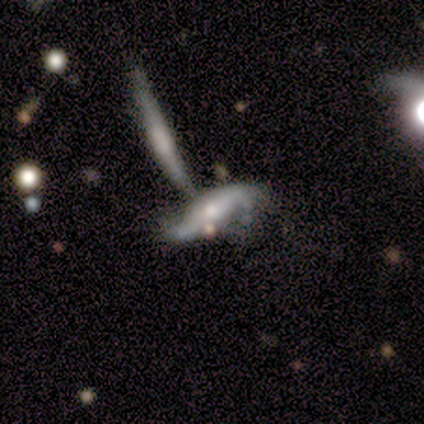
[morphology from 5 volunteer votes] Smooth or featured: smooth — 40% (tied with featured or disk — 40%)
How rounded: in between — 50% (tied with cigar-shaped — 50%)
Merging: merger — 75% (none — 25%)